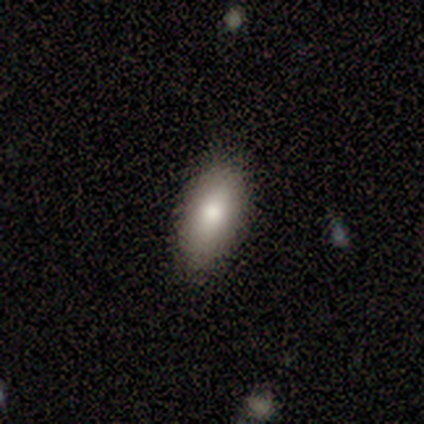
This appears to be a smooth galaxy with no disk features (70%) that is in between round and cigar-shaped (86%). Merging: none (84%).